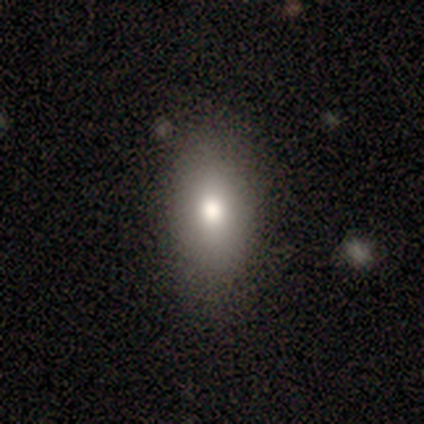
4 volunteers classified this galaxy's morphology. smooth 75%, featured or disk 25%, star or artifact 0%. Down the decision tree: how rounded — in between (100%); merging — none (100%).